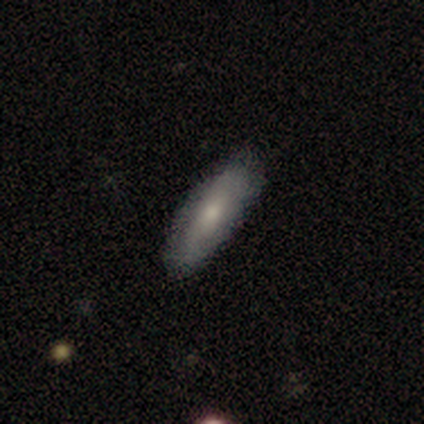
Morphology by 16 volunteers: type=smooth (75%); roundness=in between (75%); merging=none (79%).